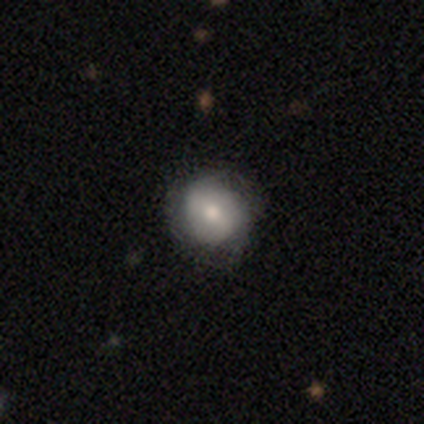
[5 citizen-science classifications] A smooth galaxy with no disk features (80%) that is round (75%).

Vote fractions:
- Smooth or featured? smooth: 80% / featured or disk: 20% / star or artifact: 0%
- How rounded? round: 75% / in between: 25% / cigar-shaped: 0%
- Merging? none: 40% (tied) / major disturbance: 40% (tied) / minor disturbance: 20% / merger: 0%